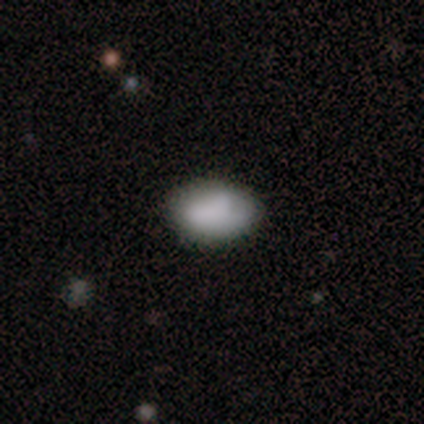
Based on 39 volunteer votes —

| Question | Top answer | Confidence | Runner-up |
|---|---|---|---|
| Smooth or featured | smooth | 90% | featured or disk (10%) |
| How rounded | in between | 86% | round (14%) |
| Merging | none | 85% | minor disturbance (15%) |